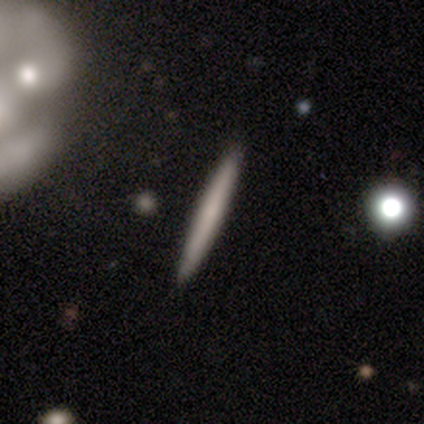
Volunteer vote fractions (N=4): Volunteers were most divided on "smooth or featured": smooth: 75%, featured or disk: 25%, star or artifact: 0%. More confident: how rounded — cigar-shaped (100%); merging — none (75%).